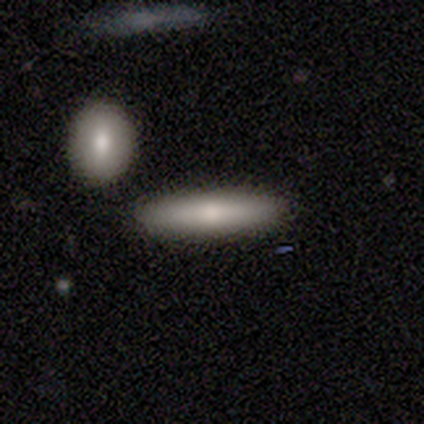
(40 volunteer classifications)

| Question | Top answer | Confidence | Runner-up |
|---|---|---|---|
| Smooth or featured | smooth | 72% | featured or disk (20%) |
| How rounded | cigar-shaped | 86% | in between (14%) |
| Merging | none | 84% | merger (11%) |